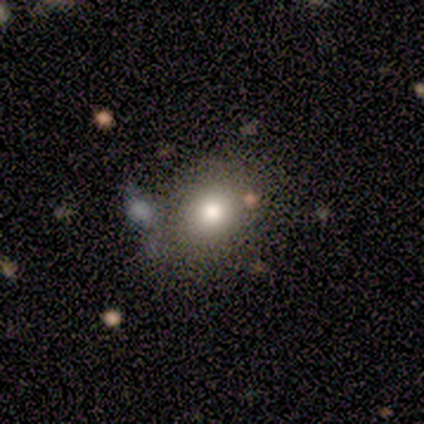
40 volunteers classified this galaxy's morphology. A smooth galaxy with no disk features (78%) that is round (71%). Merging: none (89%).